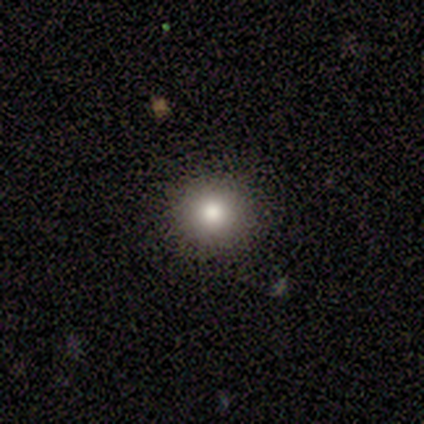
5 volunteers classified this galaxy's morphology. Q: Smooth or featured?
A: smooth (60%); runner-up: featured or disk (20%)
Q: How rounded?
A: round (100%)
Q: Merging?
A: none (100%)